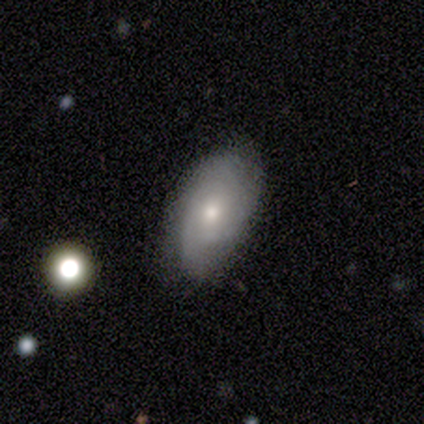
This is clearly a smooth galaxy (83%). How rounded: clearly in between (100%). Merging: possibly none (50%, tied with minor disturbance).